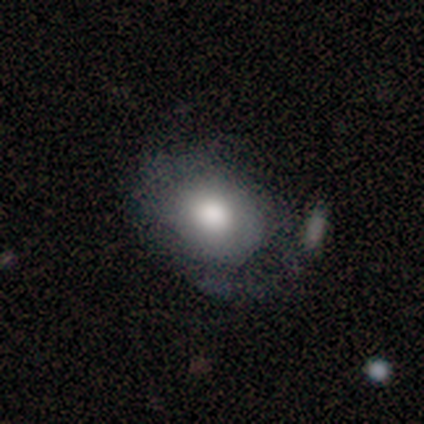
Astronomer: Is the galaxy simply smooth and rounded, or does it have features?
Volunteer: smooth — 72%.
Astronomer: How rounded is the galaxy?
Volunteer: round — 52% (runner-up: in between, 48%).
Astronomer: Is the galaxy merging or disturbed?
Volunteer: none — 42% (runner-up: minor disturbance, 29%).